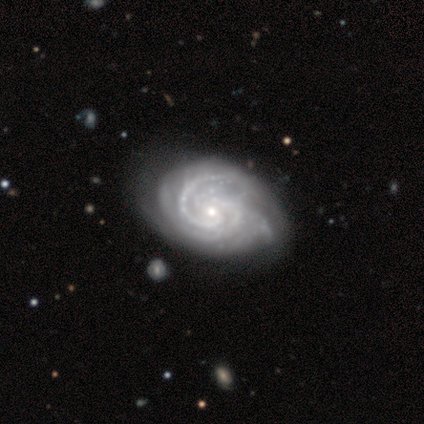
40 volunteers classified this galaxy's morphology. Smooth or featured: featured or disk — 90% (smooth — 5%)
Edge-on disk: no — 97% (yes — 3%)
Bar: no — 66% (weak — 23%)
Spiral arms: yes — 100%
Spiral winding: tight — 77% (medium — 23%)
Spiral arm count: 2 — 26% (3 — 23%)
Bulge size: small — 83% (moderate — 14%)
Merging: none — 68% (minor disturbance — 24%)